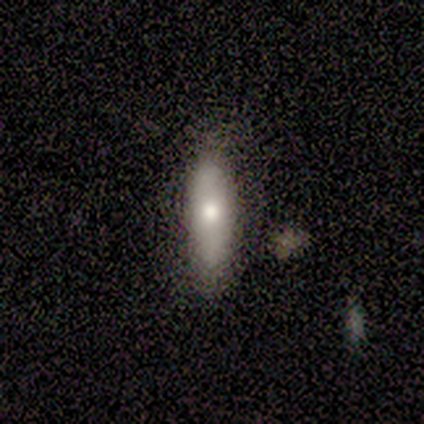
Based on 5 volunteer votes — This is clearly a smooth galaxy (80%). How rounded: possibly in between (50%, tied with cigar-shaped). Merging: clearly none (80%).